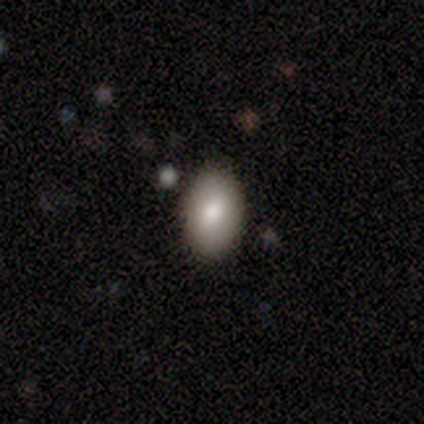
A smooth galaxy with no disk features (80%) that is in between round and cigar-shaped (100%). Merging: none (100%).